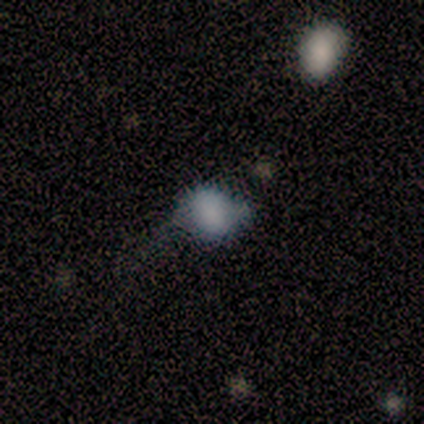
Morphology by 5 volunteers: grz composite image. It shows a smooth galaxy with no disk features (80%) that is round (50%, tied with in between). Merging: minor disturbance (75%).